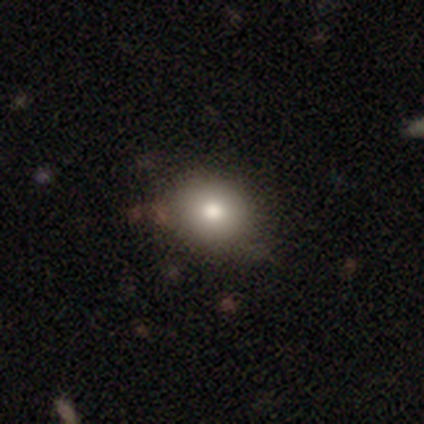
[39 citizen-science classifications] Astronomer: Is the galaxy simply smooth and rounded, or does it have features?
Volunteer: smooth — 82%.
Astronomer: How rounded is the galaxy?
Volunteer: round — 72%.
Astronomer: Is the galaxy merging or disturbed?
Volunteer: none — 50%.